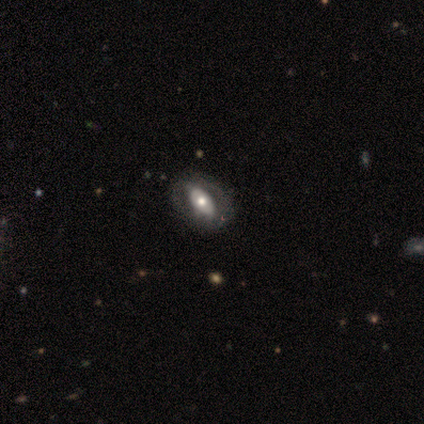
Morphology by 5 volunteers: Smooth or featured: featured or disk — 60% (smooth — 40%)
Edge-on disk: no — 100%
Bar: no — 67% (weak — 33%)
Spiral arms: no — 67% (yes — 33%)
Bulge size: large — 67% (small — 33%)
Merging: none — 40% (tied with minor disturbance — 40%)